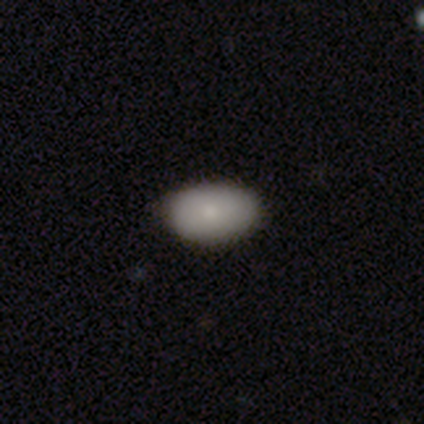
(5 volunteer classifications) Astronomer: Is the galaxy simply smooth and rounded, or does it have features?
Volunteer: smooth — 80%.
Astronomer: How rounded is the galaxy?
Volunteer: in between — 100%.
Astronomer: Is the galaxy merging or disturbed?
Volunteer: none — 100%.